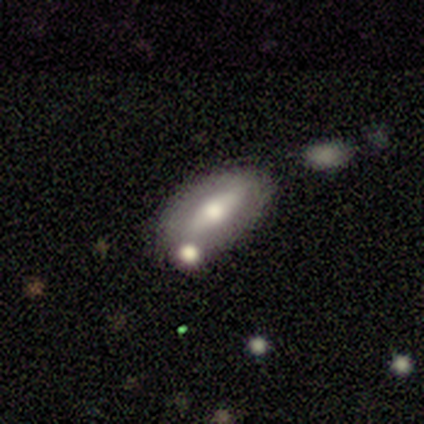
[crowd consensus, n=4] Smooth or featured?
  - smooth: 50% *
  - featured or disk: 25%
  - star or artifact: 25%
How rounded?
  - in between: 100% *
  - round: 0%
  - cigar-shaped: 0%
Merging?
  - minor disturbance: 100% *
  - none: 0%
  - major disturbance: 0%
  - merger: 0%